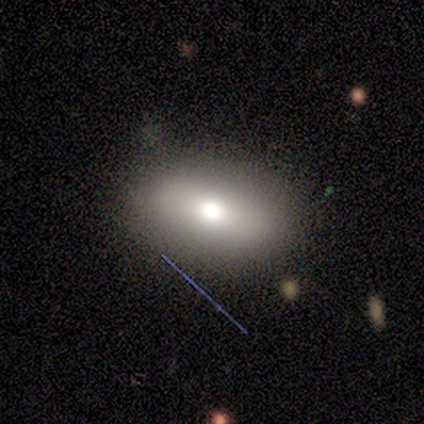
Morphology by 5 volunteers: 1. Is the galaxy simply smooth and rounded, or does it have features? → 60% smooth, 40% featured or disk, 0% star or artifact.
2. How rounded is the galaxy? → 100% in between, 0% round, 0% cigar-shaped.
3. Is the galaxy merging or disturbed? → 60% none, 20% minor disturbance, 20% merger, 0% major disturbance.